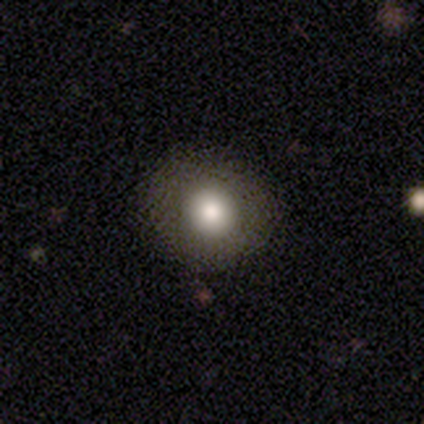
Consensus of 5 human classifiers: Overall: smooth (60%; featured or disk 20%). How rounded: round (100%). Merging: none (75%).